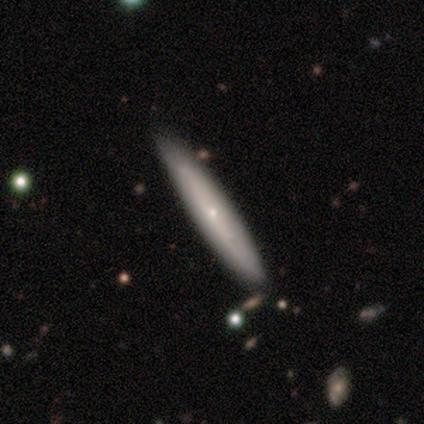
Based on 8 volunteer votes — Smooth or featured? smooth (62%)
How rounded? cigar-shaped (100%)
Merging? none (88%)